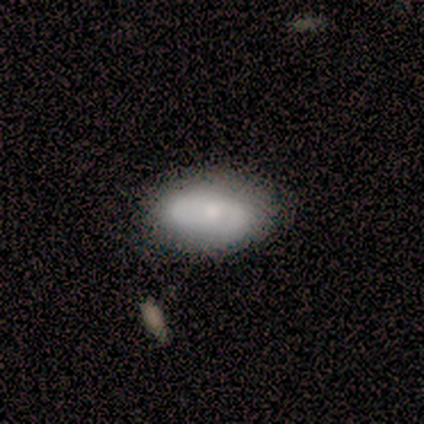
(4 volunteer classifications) A smooth galaxy with no disk features (50%, tied with featured or disk) that is in between round and cigar-shaped (100%). Merging: none (75%).